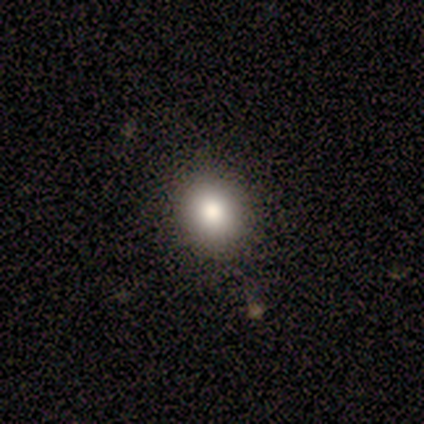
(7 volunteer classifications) smooth_or_featured: smooth (p=0.86) [alt: star or artifact p=0.14]
how_rounded: round (p=0.83) [alt: in between p=0.17]
merging: none (p=1.00)